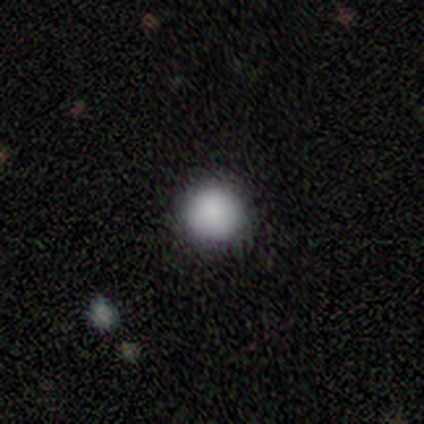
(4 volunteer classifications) smooth-or-featured: smooth: 100% | featured or disk: 0% | star or artifact: 0%
  how-rounded: round: 100% | in between: 0% | cigar-shaped: 0%
  merging: none: 100% | minor disturbance: 0% | major disturbance: 0% | merger: 0%